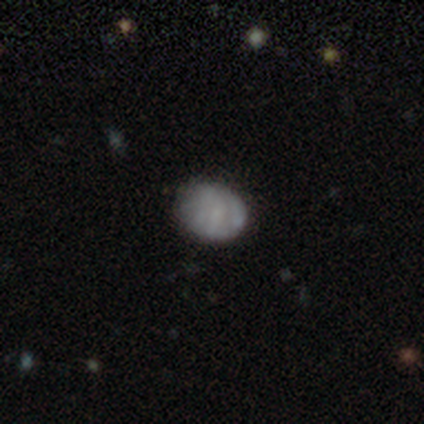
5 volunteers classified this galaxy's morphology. Q: Smooth or featured?
A: smooth (40%); tied with: featured or disk (40%)
Q: How rounded?
A: round (50%); tied with: in between (50%)
Q: Merging?
A: none (50%); tied with: minor disturbance (50%)